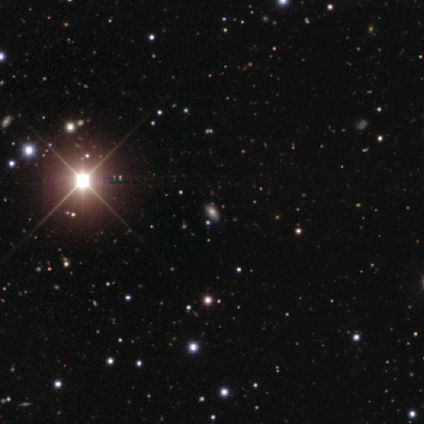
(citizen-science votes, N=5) smooth-or-featured: star or artifact: 60% | smooth: 20% | featured or disk: 20%